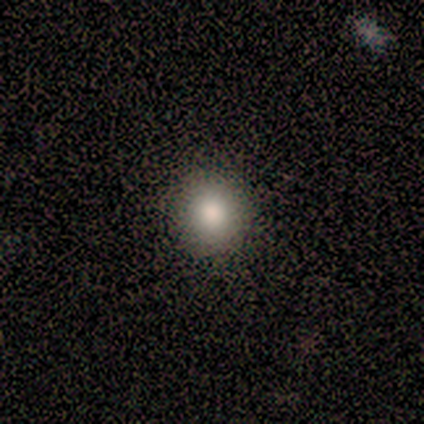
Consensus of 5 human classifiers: Smooth or featured? smooth (80%)
How rounded? round (100%)
Merging? none (100%)